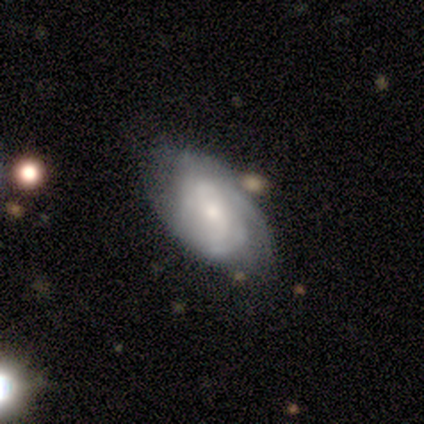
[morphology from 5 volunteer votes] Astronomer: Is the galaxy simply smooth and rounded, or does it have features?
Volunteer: featured or disk — 100%.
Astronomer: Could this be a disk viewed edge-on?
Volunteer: no — 100%.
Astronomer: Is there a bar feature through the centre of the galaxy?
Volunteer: no — 80%.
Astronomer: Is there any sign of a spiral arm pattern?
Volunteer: yes — 100%.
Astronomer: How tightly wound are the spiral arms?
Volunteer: tight — 60% (runner-up: medium, 40%).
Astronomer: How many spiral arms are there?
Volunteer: can't tell — 60% (runner-up: 2, 40%).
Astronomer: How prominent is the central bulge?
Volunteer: moderate — 60%.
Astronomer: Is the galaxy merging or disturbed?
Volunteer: none — 60%.